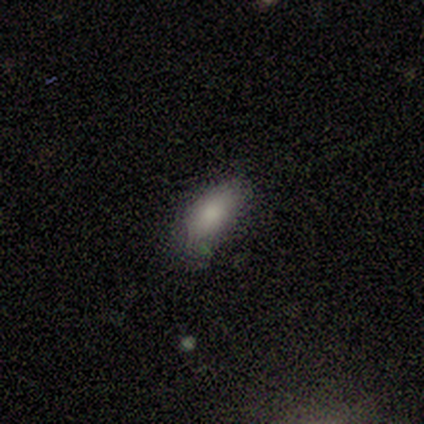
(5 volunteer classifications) Volunteers were most divided on "merging": minor disturbance: 60%, none: 40%, major disturbance: 0%, merger: 0%. More confident: smooth or featured — smooth (100%); how rounded — in between (80%).